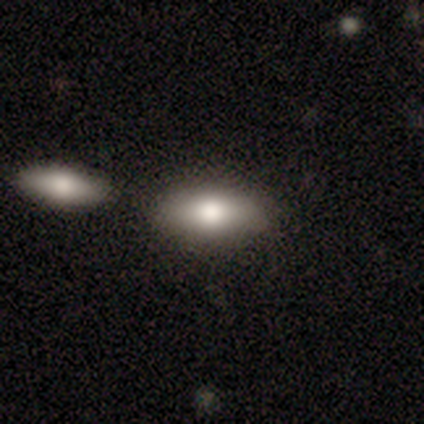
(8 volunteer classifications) This appears to be a smooth galaxy with no disk features (75%) that is in between round and cigar-shaped (100%). Merging: none (62%).